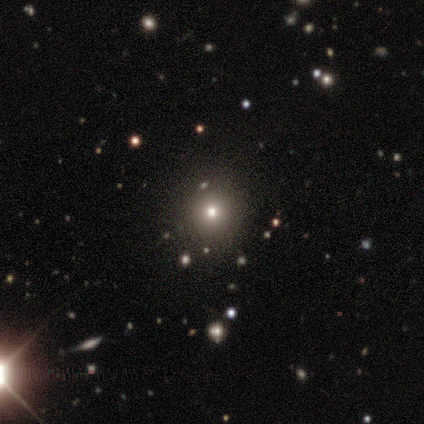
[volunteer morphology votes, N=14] This is likely a smooth galaxy (64%). How rounded: clearly round (100%). Merging: clearly none (100%).